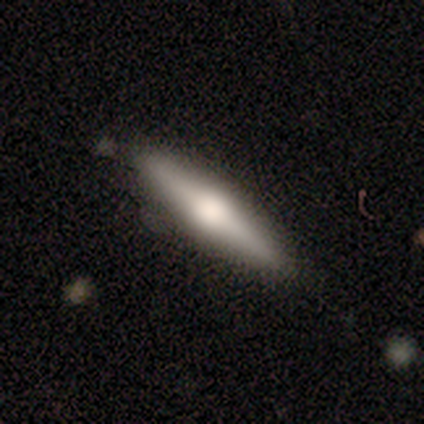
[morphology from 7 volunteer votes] Smooth or featured: featured or disk — 57% (smooth — 29%)
Edge-on disk: yes — 100%
Edge-on bulge: rounded — 75% (none — 25%)
Merging: none — 83% (minor disturbance — 17%)